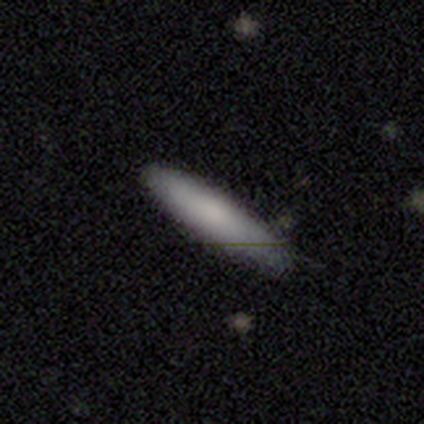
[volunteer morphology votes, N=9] Smooth or featured? 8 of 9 (89%) said smooth. How rounded? 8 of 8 (100%) said cigar-shaped. Merging? 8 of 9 (89%) said none.